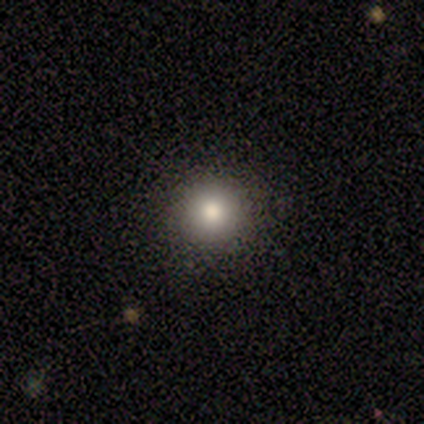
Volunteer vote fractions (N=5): Smooth or featured?
  - smooth: 80% *
  - star or artifact: 20%
  - featured or disk: 0%
How rounded?
  - round: 75% *
  - in between: 25%
  - cigar-shaped: 0%
Merging?
  - none: 100% *
  - minor disturbance: 0%
  - major disturbance: 0%
  - merger: 0%